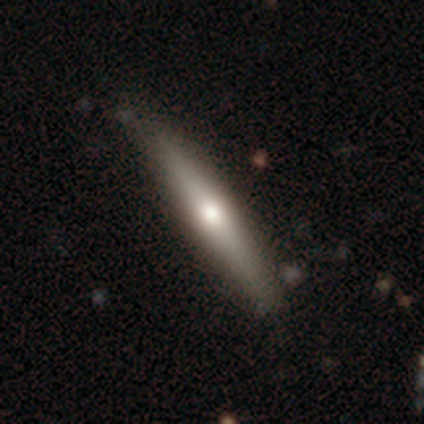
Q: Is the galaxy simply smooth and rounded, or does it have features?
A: smooth — 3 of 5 (60%).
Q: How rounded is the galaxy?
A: cigar-shaped — 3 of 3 (100%).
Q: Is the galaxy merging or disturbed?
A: none — 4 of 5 (80%).